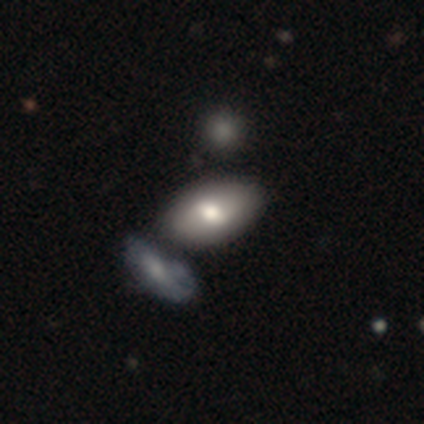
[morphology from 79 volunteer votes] Overall: smooth (77%). How rounded: in between (89%). Merging: merger (43%; none 31%).